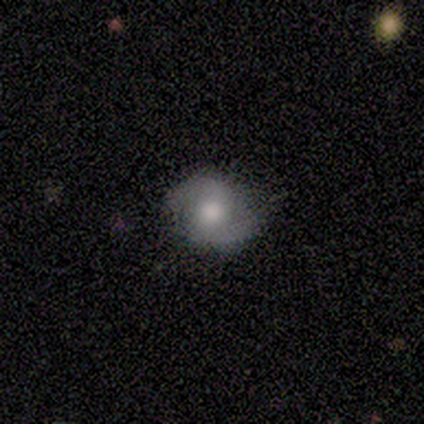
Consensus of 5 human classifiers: Smooth or featured? 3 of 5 (60%) said featured or disk. Edge-on disk? 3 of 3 (100%) said no. Bar? 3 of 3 (100%) said no. Spiral arms? 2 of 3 (67%) said yes. Spiral winding? 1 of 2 (50%, tied with loose) said tight. Spiral arm count? 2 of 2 (100%) said 2. Bulge size? 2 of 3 (67%) said moderate. Merging? 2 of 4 (50%, tied with minor disturbance) said none.